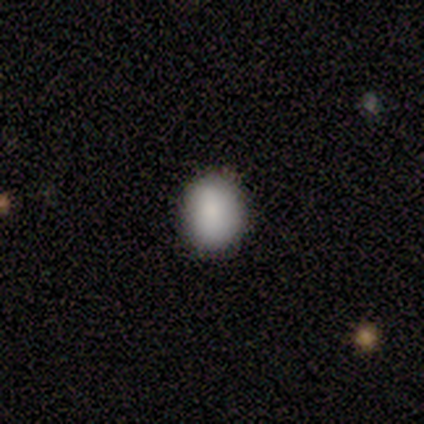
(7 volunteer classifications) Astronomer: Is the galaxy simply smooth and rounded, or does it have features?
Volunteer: smooth — 100%.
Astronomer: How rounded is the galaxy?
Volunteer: round — 57% (runner-up: in between, 43%).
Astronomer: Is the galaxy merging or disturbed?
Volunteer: none — 100%.